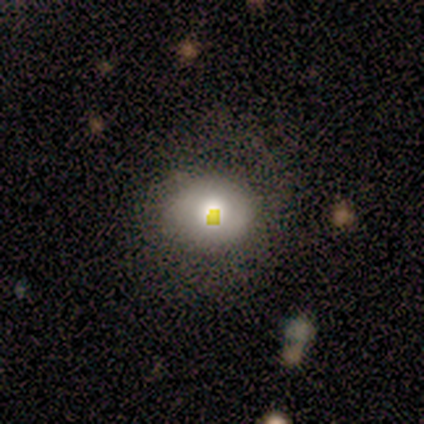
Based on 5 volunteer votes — smooth 80%, featured or disk 20%, star or artifact 0%. Down the decision tree: how rounded — round (75%); merging — none (60%).